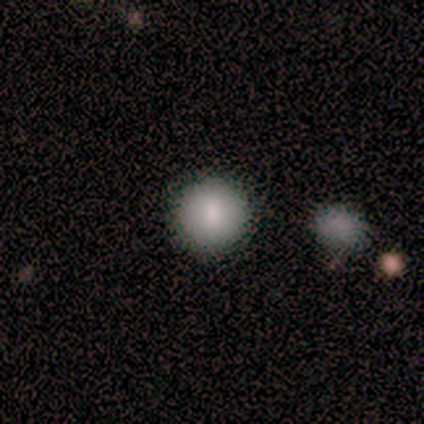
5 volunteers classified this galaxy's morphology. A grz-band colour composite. It shows a smooth galaxy with no disk features (80%) that is round (100%). Merging: none (80%).